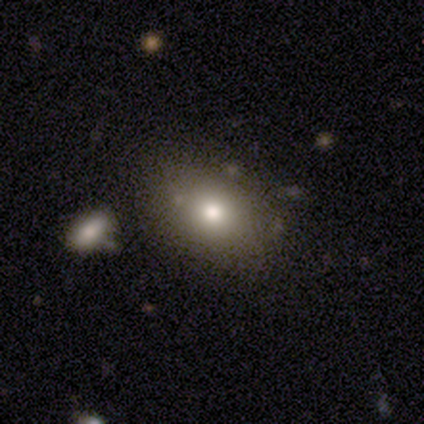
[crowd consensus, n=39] This appears to be a smooth galaxy with no disk features (79%) that is in between round and cigar-shaped (74%). Merging: none (75%).